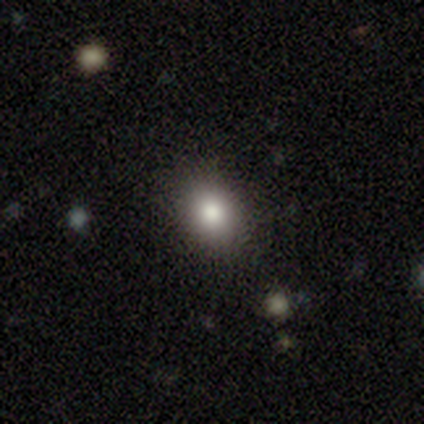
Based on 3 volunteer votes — Smooth or featured? featured or disk (67%)
Edge-on disk? no (100%)
Bar? no (100%)
Spiral arms? no (100%)
Bulge size? large (50%, tied with moderate)
Merging? none (100%)